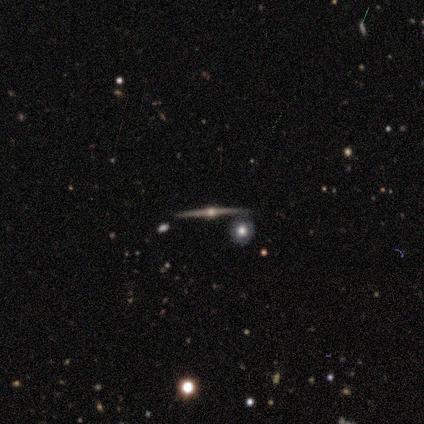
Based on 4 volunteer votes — Volunteers were most divided on "merging": none: 50%, minor disturbance: 25%, merger: 25%, major disturbance: 0%. More confident: smooth or featured — featured or disk (100%); edge-on disk — yes (100%); edge-on bulge — rounded (100%).